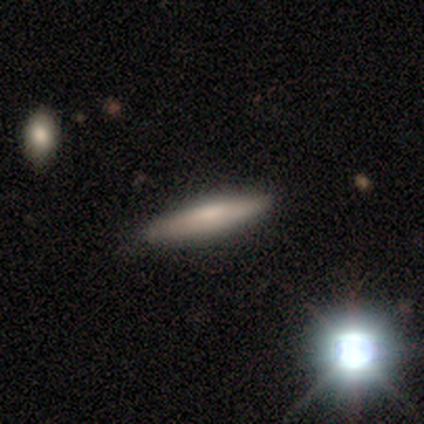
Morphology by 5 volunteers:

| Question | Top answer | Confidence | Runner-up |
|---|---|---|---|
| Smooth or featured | smooth | 60% | featured or disk (40%) |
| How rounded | cigar-shaped | 100% | — |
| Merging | none | 100% | — |